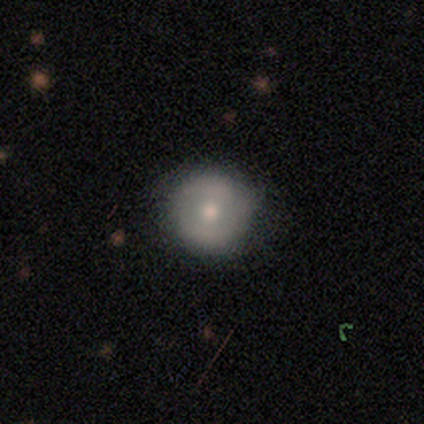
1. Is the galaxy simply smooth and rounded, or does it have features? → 75% smooth, 18% featured or disk, 8% star or artifact.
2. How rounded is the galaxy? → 97% round, 3% in between, 0% cigar-shaped.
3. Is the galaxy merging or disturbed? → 92% none, 5% minor disturbance, 3% major disturbance, 0% merger.